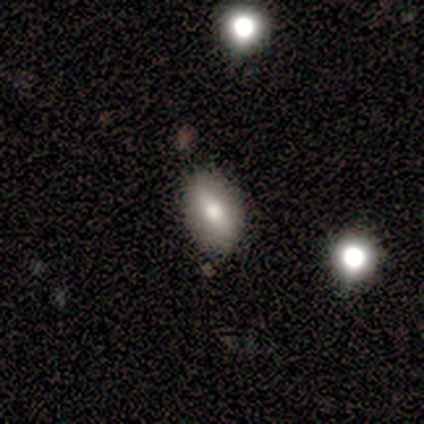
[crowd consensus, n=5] Q: Smooth or featured?
A: smooth (100%)
Q: How rounded?
A: in between (60%); runner-up: round (40%)
Q: Merging?
A: none (60%); runner-up: minor disturbance (40%)